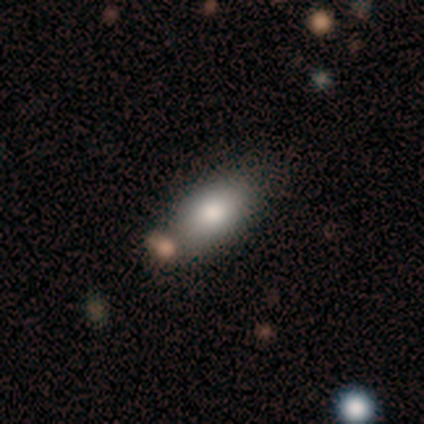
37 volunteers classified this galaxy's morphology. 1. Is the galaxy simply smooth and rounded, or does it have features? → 92% smooth, 5% featured or disk, 3% star or artifact.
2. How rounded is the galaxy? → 85% in between, 9% cigar-shaped, 6% round.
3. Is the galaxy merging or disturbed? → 69% none, 19% merger, 11% minor disturbance, 0% major disturbance.